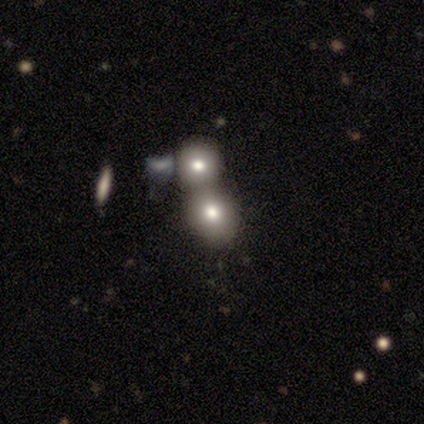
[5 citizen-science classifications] This appears to be a smooth galaxy with no disk features (60%) that is round (100%). Merging: minor disturbance (50%, tied with merger).